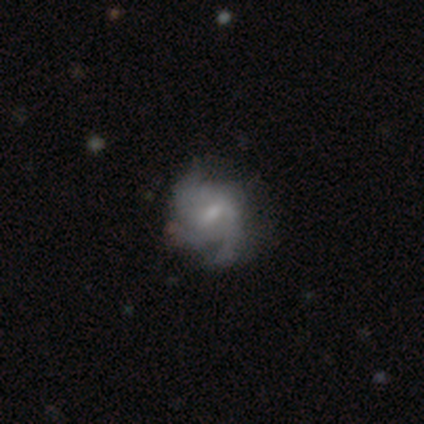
This is likely a featured or disk galaxy (67%). It is clearly not viewed edge-on (100%). Bar: possibly weak (50%, tied with no). Spiral arm pattern: possibly yes (50%, tied with no). Spiral arm count: possibly 2 (50%, tied with can't tell). Spiral winding: likely medium (75%). Central bulge: likely small (62%). Merging: marginally none (36%, tied with minor disturbance).